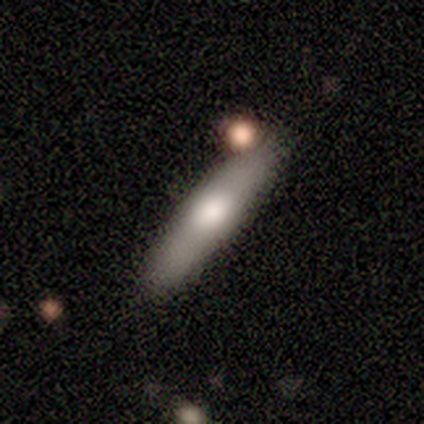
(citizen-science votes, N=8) Volunteers were most divided on "smooth or featured": featured or disk: 50%, smooth: 38%, star or artifact: 12%. More confident: edge-on disk — yes (100%); edge-on bulge — rounded (100%); merging — none (100%).